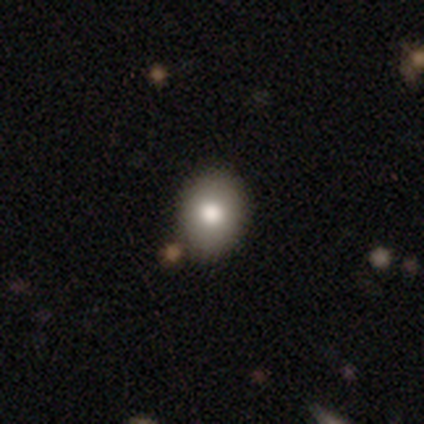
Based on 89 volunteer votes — Smooth or featured? 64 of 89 (72%) said smooth. How rounded? 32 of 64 (50%, tied with in between) said round. Merging? 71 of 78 (91%) said none.